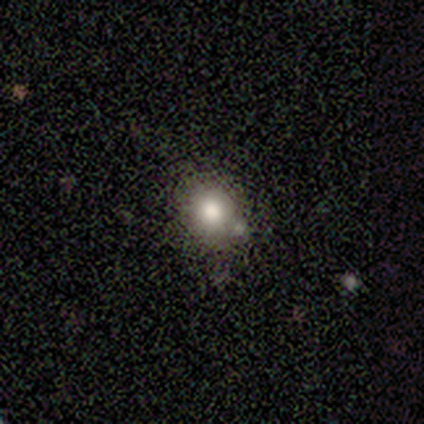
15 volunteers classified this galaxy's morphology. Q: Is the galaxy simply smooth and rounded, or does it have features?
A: smooth — 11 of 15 (73%).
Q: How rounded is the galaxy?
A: round — 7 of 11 (64%).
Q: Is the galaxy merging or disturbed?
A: none — 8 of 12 (67%).